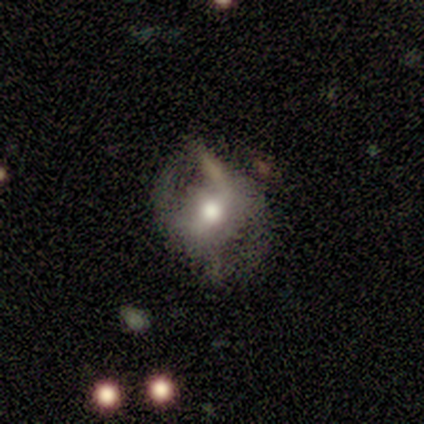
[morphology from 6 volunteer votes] A featured or disk galaxy (67%) with a weak bar (75%), 2 (100%) medium (50%, tied with loose) spiral arms (50%, tied with no) and a moderate central bulge (100%). Merging: none (60%).